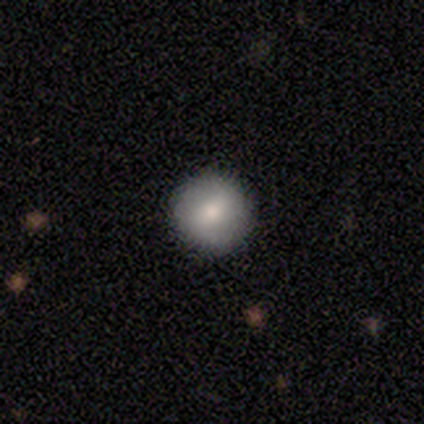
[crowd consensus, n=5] Smooth or featured? 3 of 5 (60%) said smooth. How rounded? 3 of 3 (100%) said round. Merging? 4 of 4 (100%) said none.